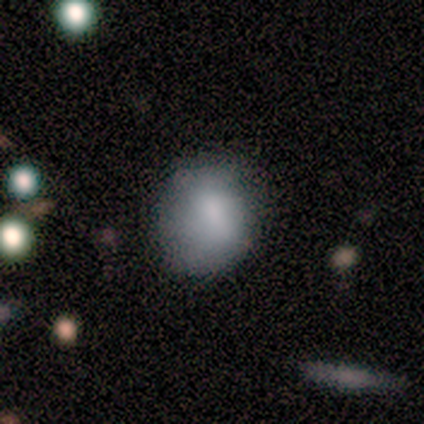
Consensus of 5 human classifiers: smooth_or_featured: smooth (p=0.60) [alt: featured or disk p=0.40]
how_rounded: round (p=0.67) [alt: in between p=0.33]
merging: minor disturbance (p=0.60) [alt: none p=0.40]